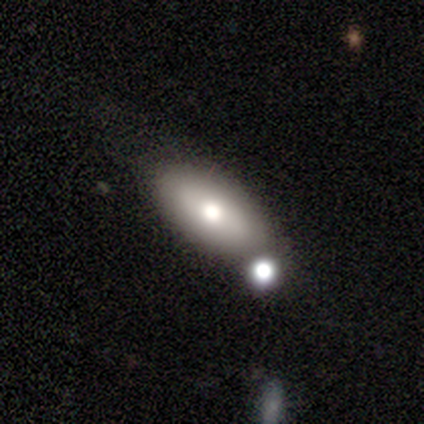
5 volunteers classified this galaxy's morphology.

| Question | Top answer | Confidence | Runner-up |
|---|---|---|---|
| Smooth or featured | smooth | 100% | — |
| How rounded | in between | 40% | tied: cigar-shaped (40%) |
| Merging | none | 80% | merger (20%) |